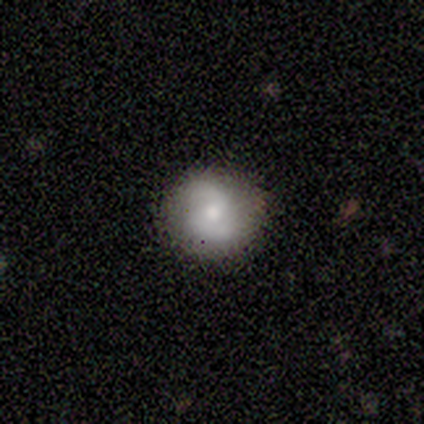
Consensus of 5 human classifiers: Q: Smooth or featured?
A: featured or disk (60%); runner-up: smooth (20%)
Q: Edge-on disk?
A: no (100%)
Q: Bar?
A: weak (67%); runner-up: no (33%)
Q: Spiral arms?
A: yes (100%)
Q: Spiral winding?
A: medium (100%)
Q: Spiral arm count?
A: 2 (100%)
Q: Bulge size?
A: moderate (67%); runner-up: small (33%)
Q: Merging?
A: none (100%)